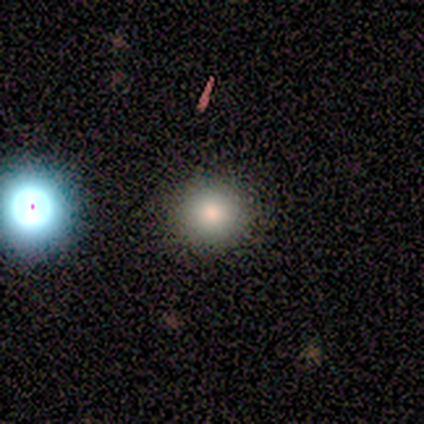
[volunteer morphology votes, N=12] Smooth or featured?
  - smooth: 83% *
  - star or artifact: 17%
  - featured or disk: 0%
How rounded?
  - round: 100% *
  - in between: 0%
  - cigar-shaped: 0%
Merging?
  - none: 90% *
  - minor disturbance: 10%
  - major disturbance: 0%
  - merger: 0%